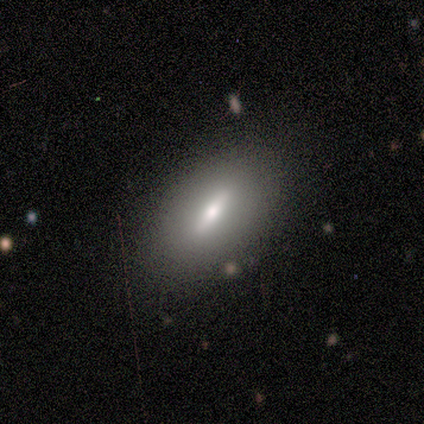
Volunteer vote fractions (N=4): smooth 50%, featured or disk 25%, star or artifact 25%. Down the decision tree: how rounded — in between (100%); merging — none (100%).